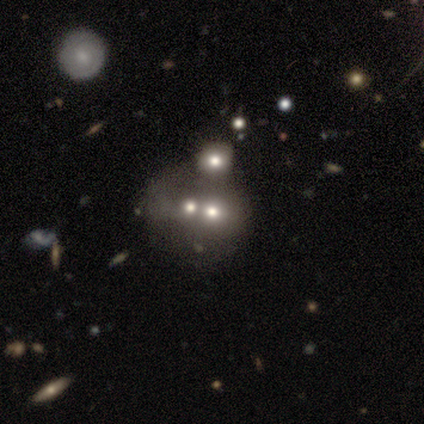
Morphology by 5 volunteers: Smooth or featured?
  - featured or disk: 60% *
  - smooth: 40%
  - star or artifact: 0%
Edge-on disk?
  - no: 100% *
  - yes: 0%
Bar?
  - no: 100% *
  - strong: 0%
  - weak: 0%
Spiral arms?
  - no: 100% *
  - yes: 0%
Bulge size?
  - small: 67% *
  - moderate: 33%
  - dominant: 0%
  - large: 0%
  - none: 0%
Merging?
  - merger: 80% *
  - none: 20%
  - minor disturbance: 0%
  - major disturbance: 0%